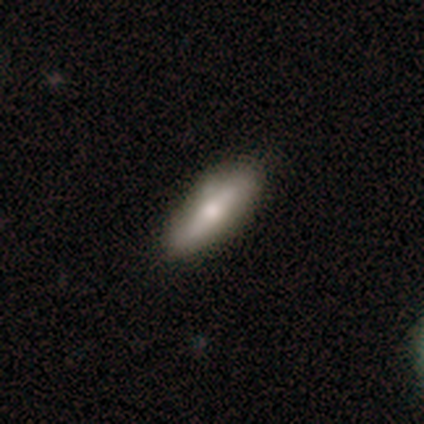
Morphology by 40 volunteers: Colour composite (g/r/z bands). It shows a smooth galaxy with no disk features (62%) that is in between round and cigar-shaped (60%). Merging: none (69%).